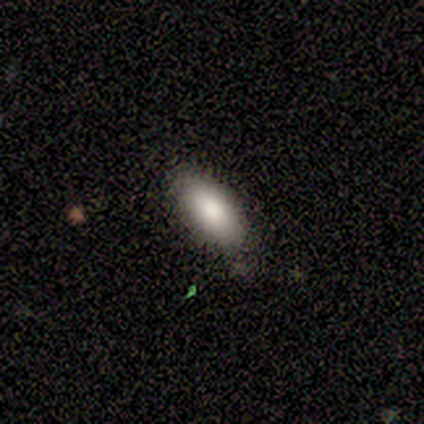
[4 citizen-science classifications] Smooth or featured? 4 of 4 (100%) said smooth. How rounded? 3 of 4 (75%) said in between. Merging? 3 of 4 (75%) said none.